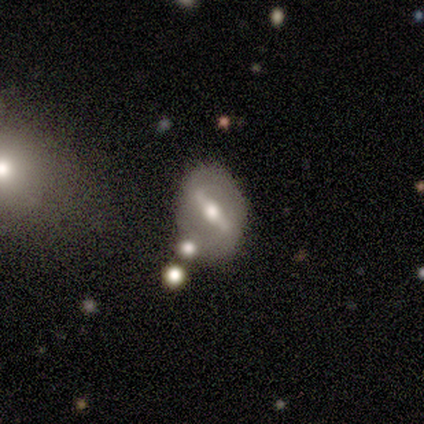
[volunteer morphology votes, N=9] Smooth or featured?
  - featured or disk: 78% *
  - smooth: 22%
  - star or artifact: 0%
Edge-on disk?
  - no: 57% *
  - yes: 43%
Bar?
  - strong: 100% *
  - weak: 0%
  - no: 0%
Spiral arms?
  - no: 75% *
  - yes: 25%
Bulge size?
  - moderate: 75% *
  - large: 25%
  - dominant: 0%
  - small: 0%
  - none: 0%
Merging?
  - none: 78% *
  - minor disturbance: 22%
  - major disturbance: 0%
  - merger: 0%